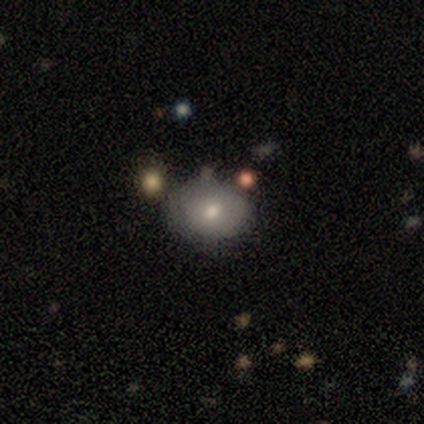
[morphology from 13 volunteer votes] Q: Smooth or featured?
A: smooth (69%); runner-up: featured or disk (23%)
Q: How rounded?
A: in between (78%); runner-up: round (22%)
Q: Merging?
A: none (75%); runner-up: minor disturbance (8%)